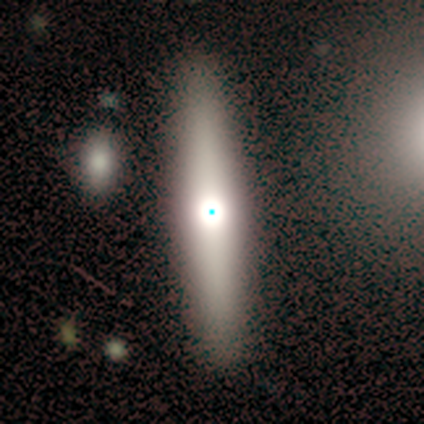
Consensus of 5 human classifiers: Smooth or featured? featured or disk (80%)
Edge-on disk? yes (75%)
Edge-on bulge? rounded (100%)
Merging? none (100%)